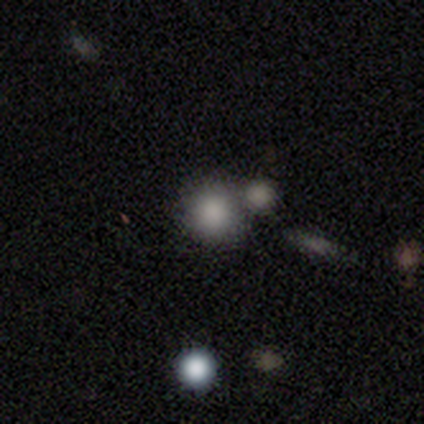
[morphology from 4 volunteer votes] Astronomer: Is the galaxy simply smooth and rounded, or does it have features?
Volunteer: smooth — 50%.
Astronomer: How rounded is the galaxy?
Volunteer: round — 100%.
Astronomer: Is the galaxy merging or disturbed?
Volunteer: none — 100%.